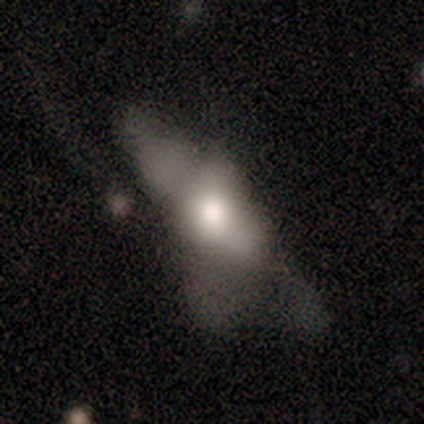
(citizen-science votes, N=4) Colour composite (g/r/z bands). It shows a smooth galaxy with no disk features (75%) that is in between round and cigar-shaped (67%). Merging: major disturbance (50%).